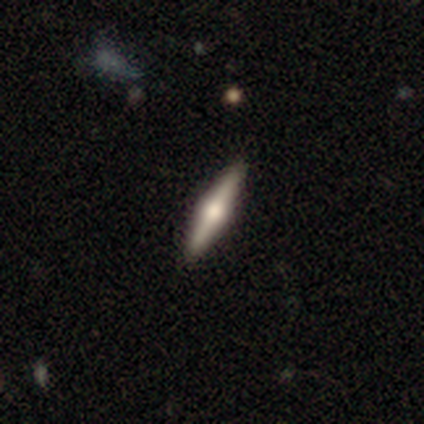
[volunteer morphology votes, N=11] type=featured or disk (82%); edge-on=yes (100%); edge-on bulge=rounded (89%); merging=none (100%).